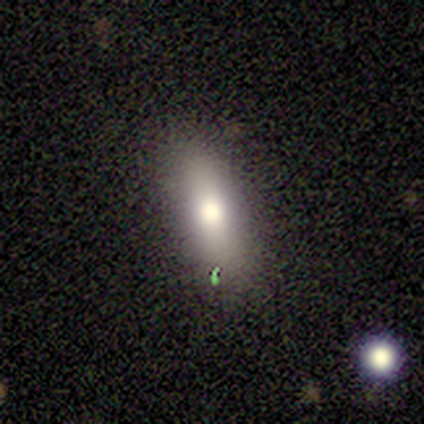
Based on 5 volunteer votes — smooth-or-featured: smooth: 80% | star or artifact: 20% | featured or disk: 0%
  how-rounded: cigar-shaped: 50% | round: 25% | in between: 25%
  merging: none: 100% | minor disturbance: 0% | major disturbance: 0% | merger: 0%